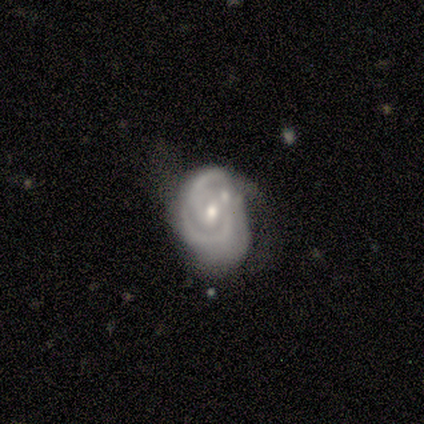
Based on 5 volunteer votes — This appears to be a featured or disk galaxy (100%) with no bar (60%), medium (60%) spiral arms (100%) and a moderate central bulge (60%). Merging: minor disturbance (40%).